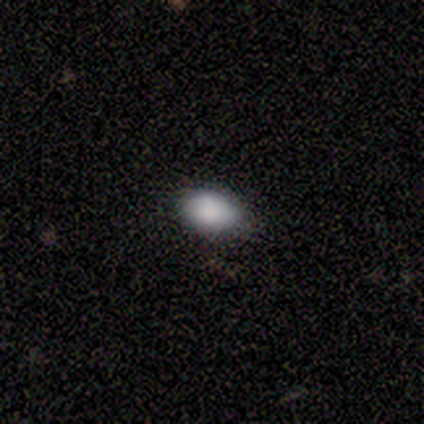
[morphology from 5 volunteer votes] type=smooth (100%); roundness=in between (100%); merging=none (60%).